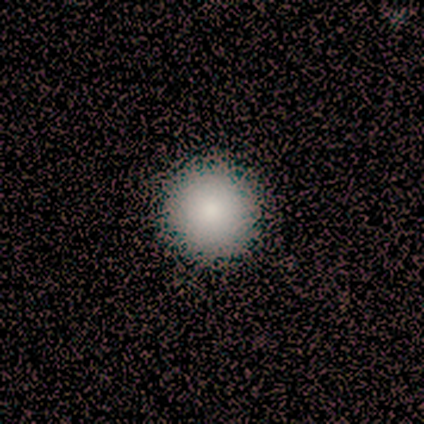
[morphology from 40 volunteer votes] Smooth or featured: smooth — 92% (featured or disk — 5%)
How rounded: round — 97% (in between — 3%)
Merging: none — 64% (minor disturbance — 3%)